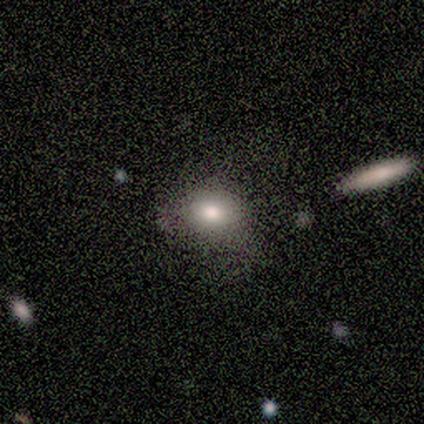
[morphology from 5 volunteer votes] Overall: smooth (80%). How rounded: in between (75%). Merging: none (100%).